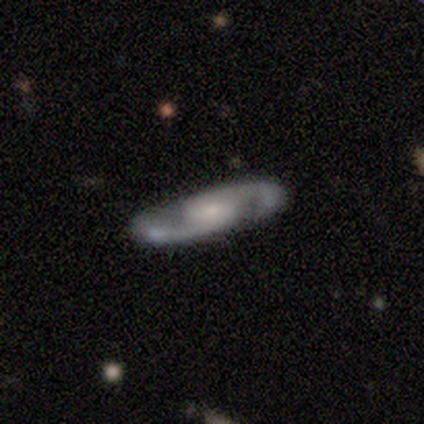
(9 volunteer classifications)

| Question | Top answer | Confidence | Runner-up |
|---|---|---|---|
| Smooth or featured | featured or disk | 100% | — |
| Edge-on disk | no | 100% | — |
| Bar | no | 44% | weak (33%) |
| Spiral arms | yes | 100% | — |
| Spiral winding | loose | 44% | medium (33%) |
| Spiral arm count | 2 | 100% | — |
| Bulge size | small | 78% | large (11%) |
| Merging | none | 100% | — |